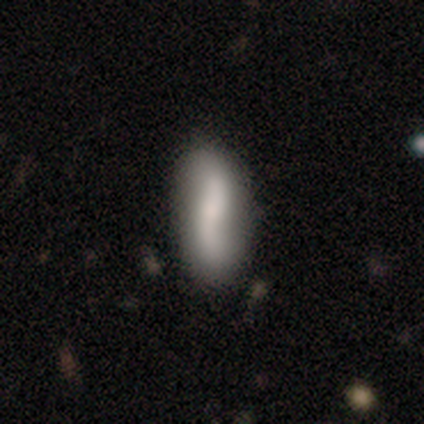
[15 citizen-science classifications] Q: Smooth or featured?
A: featured or disk (53%); runner-up: smooth (47%)
Q: Edge-on disk?
A: no (100%)
Q: Bar?
A: no (50%); runner-up: weak (38%)
Q: Spiral arms?
A: yes (88%); runner-up: no (12%)
Q: Spiral winding?
A: loose (100%)
Q: Spiral arm count?
A: 2 (100%)
Q: Bulge size?
A: small (50%); runner-up: large (25%)
Q: Merging?
A: none (80%); runner-up: minor disturbance (20%)